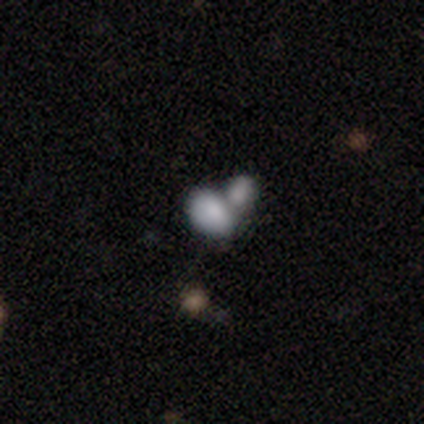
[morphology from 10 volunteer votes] Volunteers were most divided on "merging": merger: 67%, none: 22%, minor disturbance: 11%, major disturbance: 0%. More confident: how rounded — in between (88%); smooth or featured — smooth (80%).